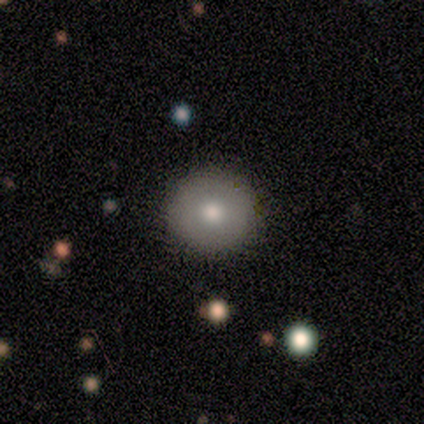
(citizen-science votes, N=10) A smooth galaxy with no disk features (80%) that is round (100%).

Vote fractions:
- Smooth or featured? smooth: 80% / star or artifact: 20% / featured or disk: 0%
- How rounded? round: 100% / in between: 0% / cigar-shaped: 0%
- Merging? none: 88% / minor disturbance: 12% / major disturbance: 0% / merger: 0%